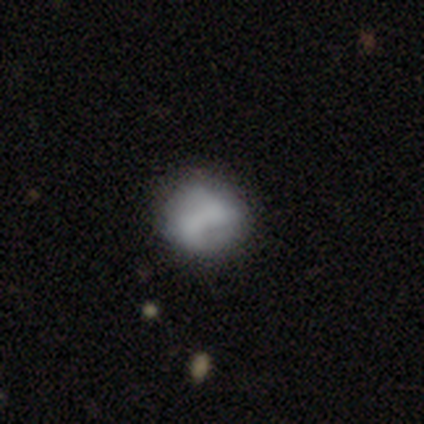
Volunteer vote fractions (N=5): Smooth or featured: featured or disk — 80% (star or artifact — 20%)
Edge-on disk: no — 100%
Bar: no — 100%
Spiral arms: no — 75% (yes — 25%)
Bulge size: none — 75% (moderate — 25%)
Merging: none — 50% (tied with merger — 50%)